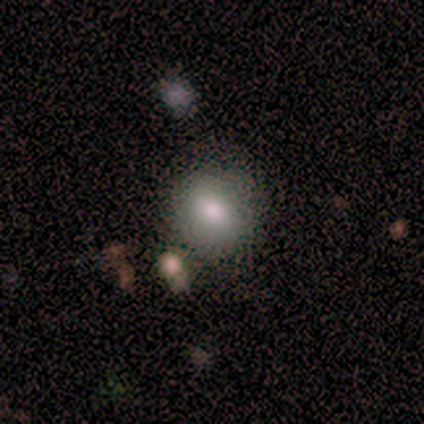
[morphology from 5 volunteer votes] smooth 100%, featured or disk 0%, star or artifact 0%. Down the decision tree: how rounded — round (60%); merging — none (60%).